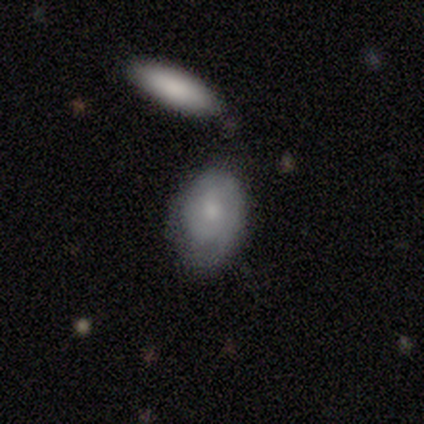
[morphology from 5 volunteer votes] smooth_or_featured: smooth (p=0.60) [alt: featured or disk p=0.40]
how_rounded: in between (p=0.67) [alt: round p=0.33]
merging: none (p=1.00)